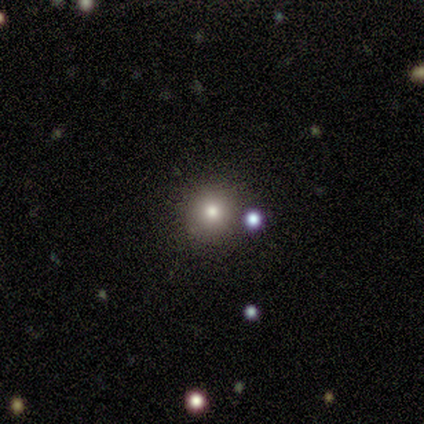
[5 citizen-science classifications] Q: Smooth or featured?
A: smooth (100%)
Q: How rounded?
A: round (100%)
Q: Merging?
A: none (100%)